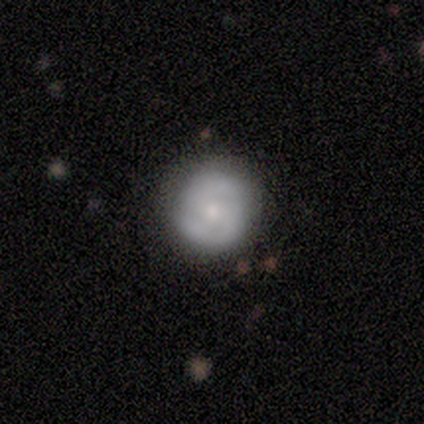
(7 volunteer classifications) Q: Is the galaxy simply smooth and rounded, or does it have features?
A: featured or disk — 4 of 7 (57%).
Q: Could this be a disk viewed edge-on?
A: no — 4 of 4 (100%).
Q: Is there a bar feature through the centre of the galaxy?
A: no — 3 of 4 (75%).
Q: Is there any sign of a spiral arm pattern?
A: yes — 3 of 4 (75%).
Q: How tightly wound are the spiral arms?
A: tight — 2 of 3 (67%).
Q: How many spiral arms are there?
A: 2 — 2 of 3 (67%).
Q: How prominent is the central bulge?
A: small — 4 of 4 (100%).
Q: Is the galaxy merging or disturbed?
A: none — 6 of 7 (86%).